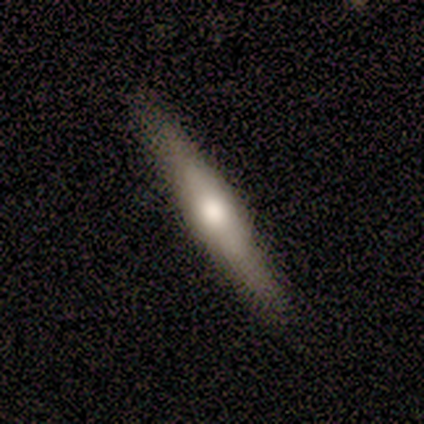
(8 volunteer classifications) This appears to be a smooth galaxy with no disk features (50%) that is cigar-shaped (100%). Merging: none (100%).